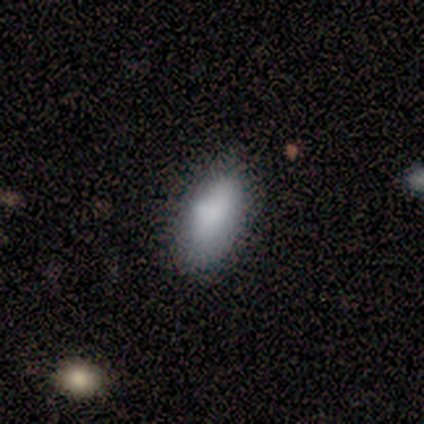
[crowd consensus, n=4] Smooth or featured? 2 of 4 (50%, tied with featured or disk) said smooth. How rounded? 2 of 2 (100%) said in between. Merging? 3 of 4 (75%) said none.